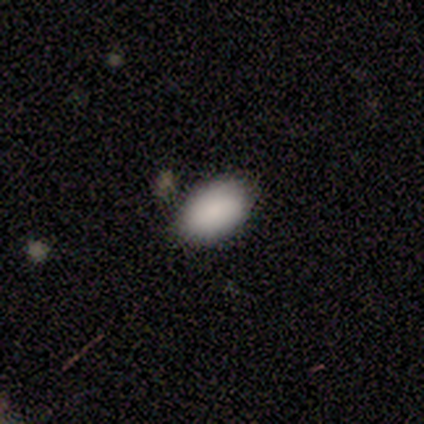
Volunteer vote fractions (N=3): Q: Smooth or featured?
A: smooth (100%)
Q: How rounded?
A: in between (67%); runner-up: round (33%)
Q: Merging?
A: none (100%)